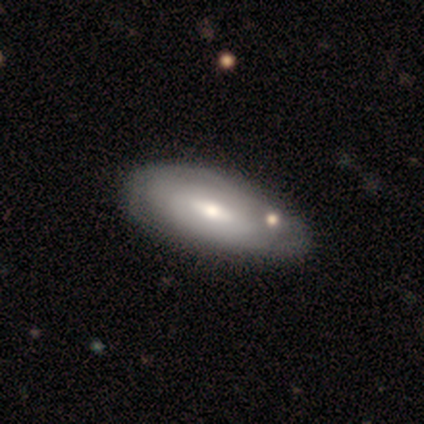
A featured or disk galaxy (80%) with a weak bar (50%, tied with no), 2 (50%, tied with can't tell) tight (50%, tied with medium) spiral arms (50%, tied with no) and a moderate central bulge (50%).

Vote fractions:
- Smooth or featured? featured or disk: 80% / smooth: 20% / star or artifact: 0%
- Edge-on disk? no: 100% / yes: 0%
- Bar? weak: 50% (tied) / no: 50% (tied) / strong: 0%
- Spiral arms? yes: 50% (tied) / no: 50% (tied)
- Spiral winding? tight: 50% (tied) / medium: 50% (tied) / loose: 0%
- Spiral arm count? 2: 50% (tied) / can't tell: 50% (tied) / 1: 0% / 3: 0% / 4: 0% / more than 4: 0%
- Bulge size? moderate: 50% / large: 25% / small: 25% / dominant: 0% / none: 0%
- Merging? none: 60% / minor disturbance: 40% / major disturbance: 0% / merger: 0%